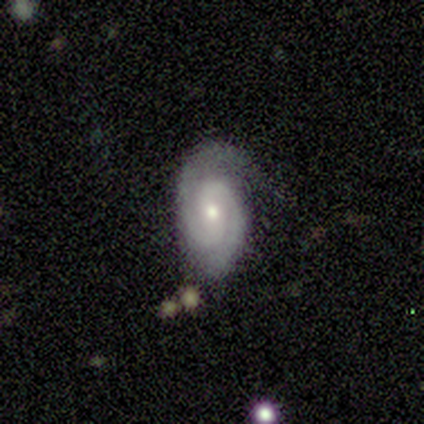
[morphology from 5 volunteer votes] featured or disk 100%, smooth 0%, star or artifact 0%. Down the decision tree: edge-on disk — no (100%); bar — no (60%); spiral arms — yes (100%); spiral arm count — 2 (80%); spiral winding — tight (80%); bulge size — moderate (80%); merging — none (80%).